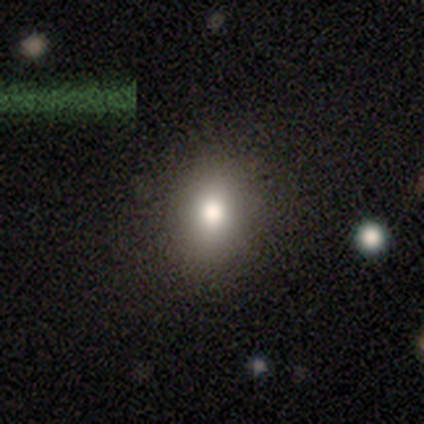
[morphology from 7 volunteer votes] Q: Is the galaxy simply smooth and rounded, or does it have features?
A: smooth — 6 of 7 (86%).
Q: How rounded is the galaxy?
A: round — 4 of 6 (67%).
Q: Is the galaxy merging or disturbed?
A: none — 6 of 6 (100%).